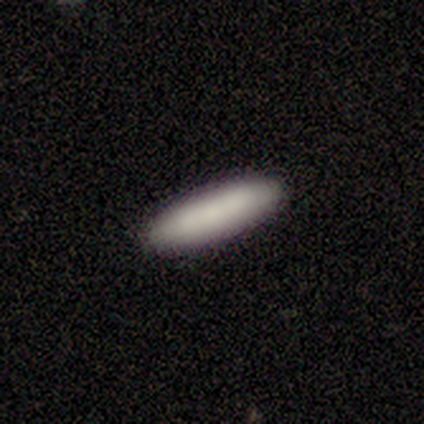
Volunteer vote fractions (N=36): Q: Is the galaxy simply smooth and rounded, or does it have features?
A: smooth — 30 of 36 (83%).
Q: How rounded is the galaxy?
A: cigar-shaped — 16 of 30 (53%).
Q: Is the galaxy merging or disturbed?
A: none — 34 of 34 (100%).